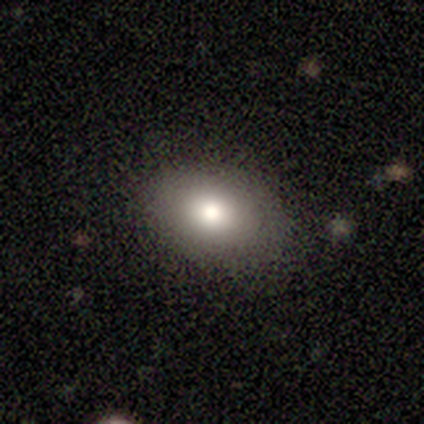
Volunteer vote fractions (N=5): Smooth or featured: smooth — 80% (star or artifact — 20%)
How rounded: in between — 75% (round — 25%)
Merging: none — 75% (minor disturbance — 25%)